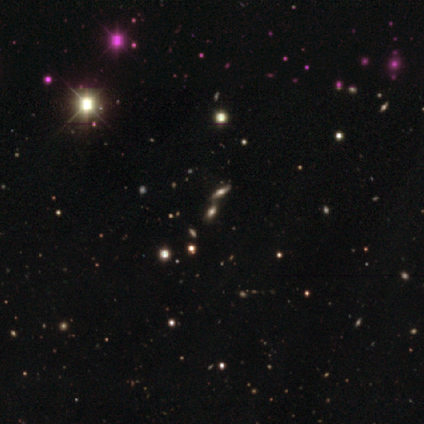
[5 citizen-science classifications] star or artifact 60%, smooth 40%, featured or disk 0%.